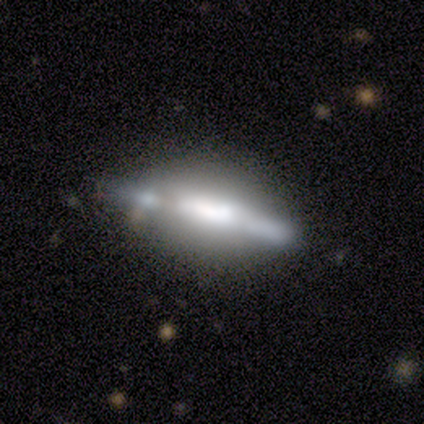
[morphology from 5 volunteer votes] featured or disk 60%, smooth 40%, star or artifact 0%. Down the decision tree: edge-on disk — yes (67%); edge-on bulge — rounded (100%); merging — none (40%, tied with minor disturbance).